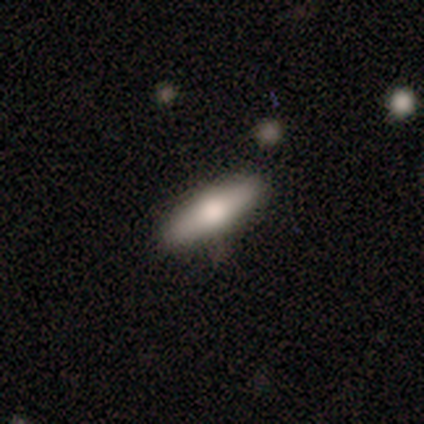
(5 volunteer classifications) A smooth galaxy with no disk features (60%) that is in between round and cigar-shaped (67%).

Vote fractions:
- Smooth or featured? smooth: 60% / featured or disk: 40% / star or artifact: 0%
- How rounded? in between: 67% / cigar-shaped: 33% / round: 0%
- Merging? none: 80% / minor disturbance: 20% / major disturbance: 0% / merger: 0%